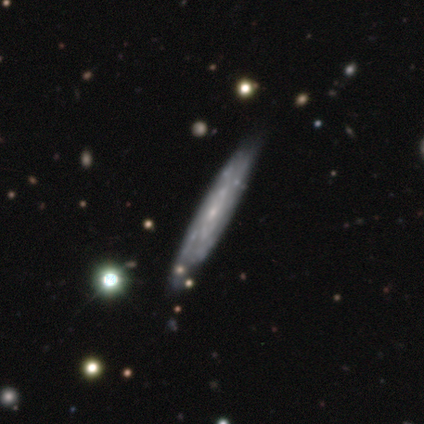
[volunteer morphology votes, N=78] Smooth or featured? featured or disk (73%)
Edge-on disk? no (51%)
Bar? no (72%)
Spiral arms? yes (76%)
Spiral winding? tight (68%)
Spiral arm count? can't tell (68%)
Bulge size? small (62%)
Merging? none (35%)